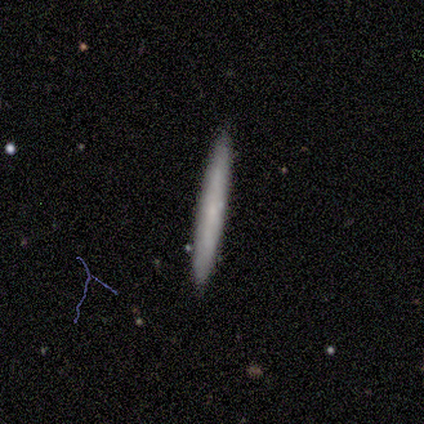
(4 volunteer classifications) Q: Smooth or featured?
A: smooth (100%)
Q: How rounded?
A: cigar-shaped (100%)
Q: Merging?
A: none (100%)